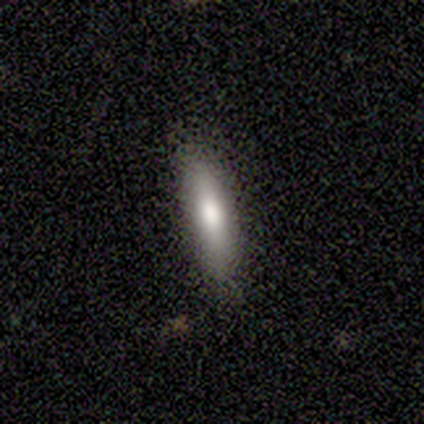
Smooth or featured: smooth — 100%
How rounded: cigar-shaped — 100%
Merging: none — 100%